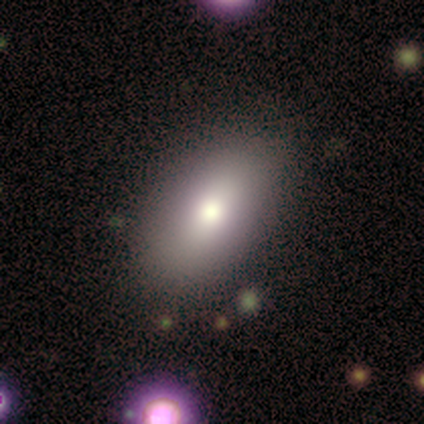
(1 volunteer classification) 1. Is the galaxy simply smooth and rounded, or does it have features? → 100% smooth, 0% featured or disk, 0% star or artifact.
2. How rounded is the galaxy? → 100% in between, 0% round, 0% cigar-shaped.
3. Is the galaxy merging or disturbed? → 100% none, 0% minor disturbance, 0% major disturbance, 0% merger.